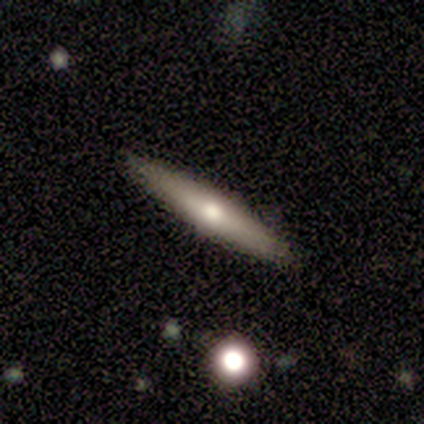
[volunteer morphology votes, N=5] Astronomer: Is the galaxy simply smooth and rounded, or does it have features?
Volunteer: featured or disk — 80%.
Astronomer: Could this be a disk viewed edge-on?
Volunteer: yes — 75%.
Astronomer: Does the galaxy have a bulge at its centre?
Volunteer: rounded — 100%.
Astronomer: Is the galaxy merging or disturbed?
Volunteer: none — 80%.